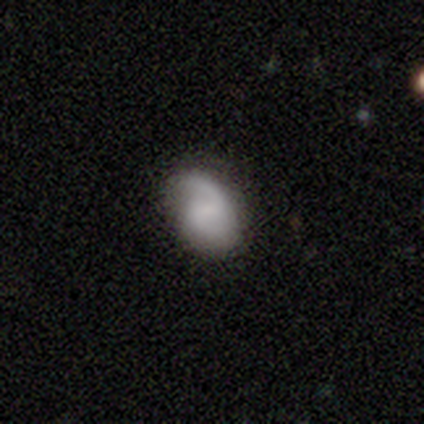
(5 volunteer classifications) Overall: featured or disk (60%; smooth 40%). Edge-on disk: no (67%; yes 33%). Bar: weak (50%, tied with no). Spiral arms: yes (100%). Spiral arm count: 2 (100%). Spiral winding: tight (50%, tied with medium). Bulge size: small (100%). Merging: none (80%).